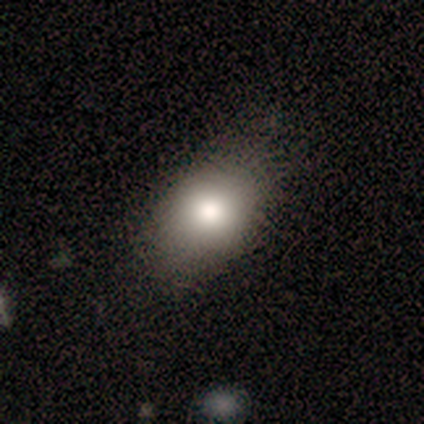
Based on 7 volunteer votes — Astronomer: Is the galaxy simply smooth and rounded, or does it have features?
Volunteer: smooth — 43%, tied with featured or disk at 43%.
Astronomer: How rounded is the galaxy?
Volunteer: round — 67%.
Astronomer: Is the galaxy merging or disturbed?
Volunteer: none — 33%, tied with minor disturbance at 33%.